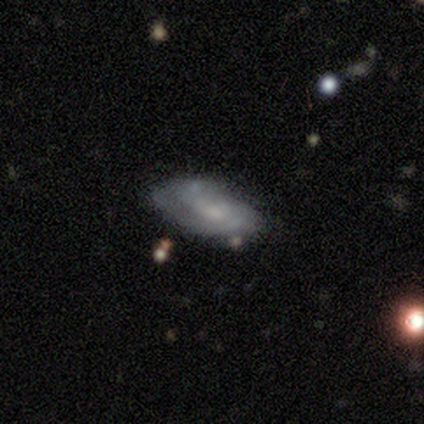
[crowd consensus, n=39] Smooth or featured? featured or disk (56%)
Edge-on disk? no (95%)
Bar? no (67%)
Spiral arms? yes (71%)
Spiral winding? tight (67%)
Spiral arm count? 2 (53%)
Bulge size? small (76%)
Merging? none (61%)